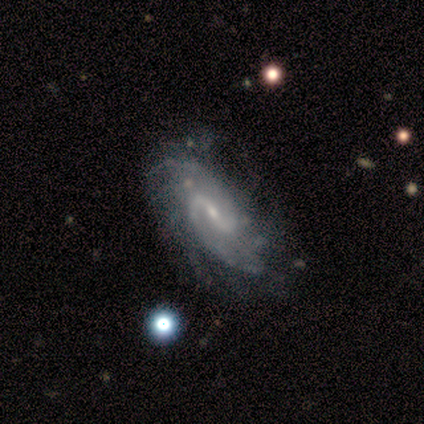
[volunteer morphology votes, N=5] Smooth or featured? featured or disk (100%)
Edge-on disk? no (100%)
Bar? weak (40%, tied with no)
Spiral arms? yes (100%)
Spiral winding? medium (40%, tied with loose)
Spiral arm count? 2 (80%)
Bulge size? small (80%)
Merging? none (60%)